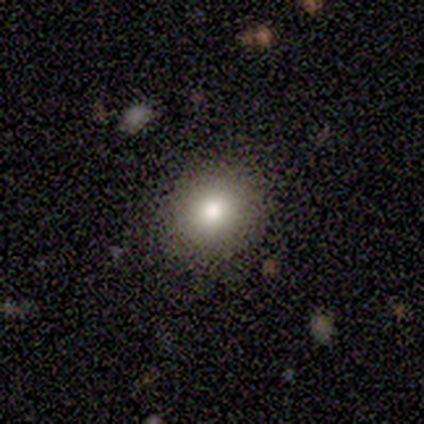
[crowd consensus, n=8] Smooth or featured? 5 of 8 (62%) said smooth. How rounded? 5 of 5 (100%) said round. Merging? 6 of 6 (100%) said none.